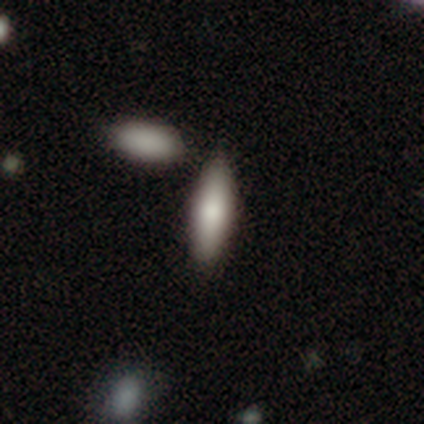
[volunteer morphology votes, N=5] A smooth galaxy with no disk features (80%) that is in between round and cigar-shaped (50%, tied with cigar-shaped). Merging: none (40%, tied with minor disturbance).